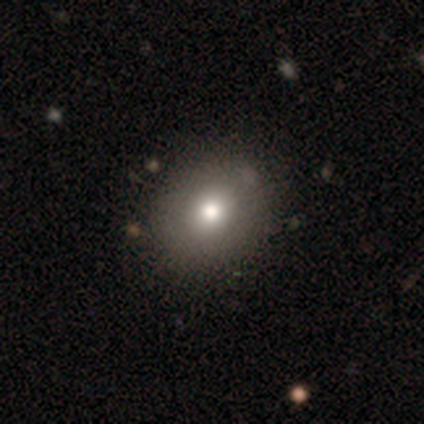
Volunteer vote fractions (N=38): A smooth galaxy with no disk features (76%) that is round (76%). Merging: none (46%).